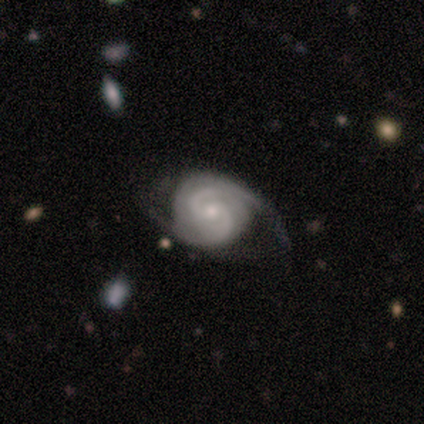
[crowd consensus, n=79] Smooth or featured? featured or disk (95%)
Edge-on disk? no (100%)
Bar? no (56%)
Spiral arms? yes (96%)
Spiral winding? tight (49%)
Spiral arm count? 2 (72%)
Bulge size? small (64%)
Merging? none (38%)